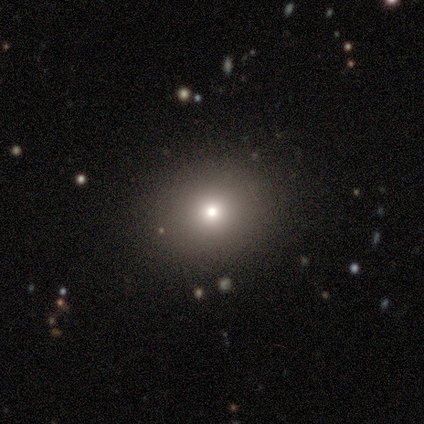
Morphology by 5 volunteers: Smooth or featured? 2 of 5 (40%, tied with featured or disk) said smooth. How rounded? 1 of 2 (50%, tied with in between) said round. Merging? 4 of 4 (100%) said none.